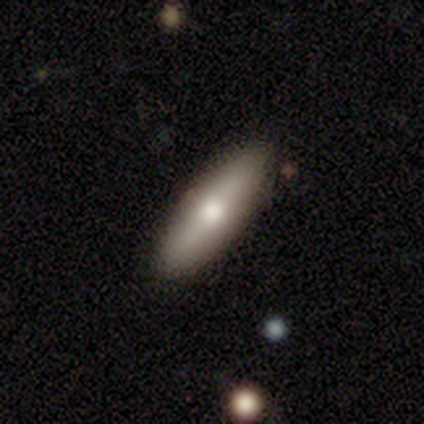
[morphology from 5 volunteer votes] smooth_or_featured: featured or disk (p=0.60) [alt: smooth p=0.40]
disk_edge_on: yes (p=1.00)
edge_on_bulge: rounded (p=1.00)
merging: none (p=1.00)